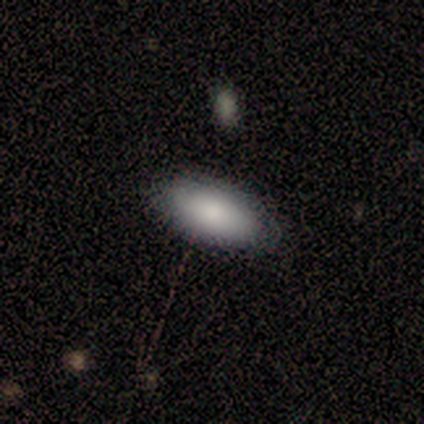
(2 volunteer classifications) Q: Smooth or featured?
A: smooth (100%)
Q: How rounded?
A: in between (100%)
Q: Merging?
A: none (100%)